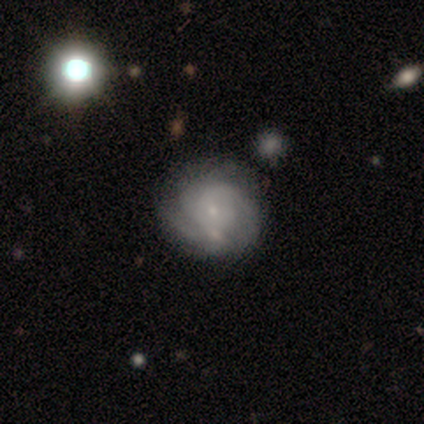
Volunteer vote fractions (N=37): A featured or disk galaxy (78%) with no bar (76%), 3 (32%, tied with can't tell) tight (61%) spiral arms (97%) and a small central bulge (97%).

Vote fractions:
- Smooth or featured? featured or disk: 78% / smooth: 16% / star or artifact: 5%
- Edge-on disk? no: 100% / yes: 0%
- Bar? no: 76% / weak: 21% / strong: 3%
- Spiral arms? yes: 97% / no: 3%
- Spiral winding? tight: 61% / medium: 32% / loose: 7%
- Spiral arm count? 3: 32% (tied) / can't tell: 32% (tied) / 2: 25% / 1: 7% / more than 4: 4% / 4: 0%
- Bulge size? small: 97% / large: 3% / dominant: 0% / moderate: 0% / none: 0%
- Merging? none: 71% / minor disturbance: 14% / major disturbance: 9% / merger: 6%